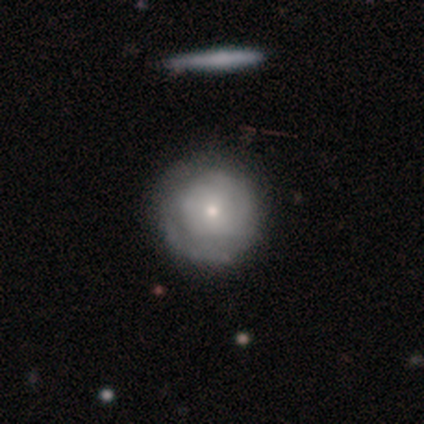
A smooth galaxy with no disk features (48%, tied with featured or disk) that is round (89%).

Vote fractions:
- Smooth or featured? smooth: 48% (tied) / featured or disk: 48% (tied) / star or artifact: 5%
- How rounded? round: 89% / in between: 5% / cigar-shaped: 5%
- Merging? none: 89% / minor disturbance: 8% / major disturbance: 3% / merger: 0%